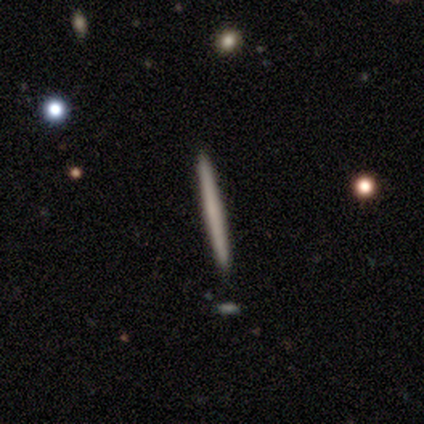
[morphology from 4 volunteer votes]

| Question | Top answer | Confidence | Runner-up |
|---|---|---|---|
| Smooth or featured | smooth | 75% | featured or disk (25%) |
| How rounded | cigar-shaped | 100% | — |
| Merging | none | 100% | — |